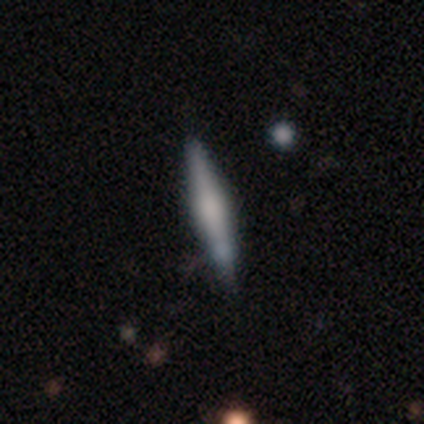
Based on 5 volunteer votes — Q: Smooth or featured?
A: smooth (40%); tied with: featured or disk (40%)
Q: How rounded?
A: cigar-shaped (100%)
Q: Merging?
A: none (75%); runner-up: minor disturbance (25%)